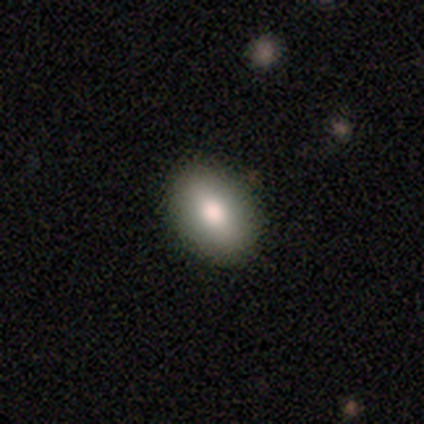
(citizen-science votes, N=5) Morphology: type=smooth (100%); roundness=in between (100%); merging=none (100%).